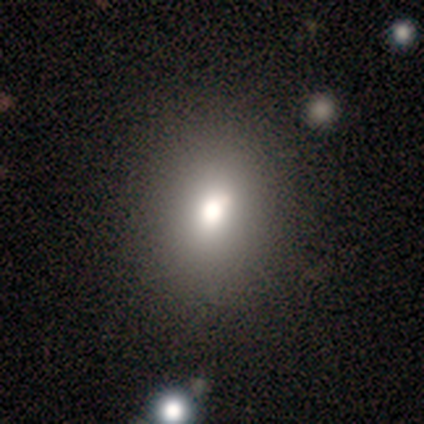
smooth-or-featured: smooth: 71% | featured or disk: 29% | star or artifact: 0%
  how-rounded: in between: 60% | round: 40% | cigar-shaped: 0%
  merging: none: 100% | minor disturbance: 0% | major disturbance: 0% | merger: 0%